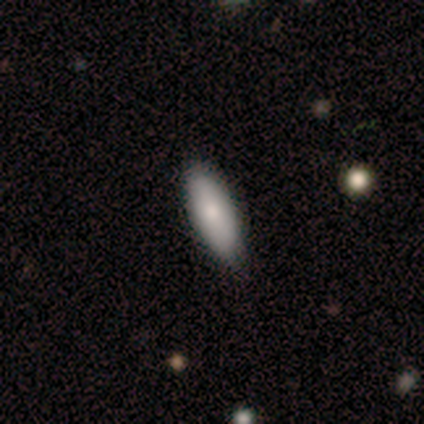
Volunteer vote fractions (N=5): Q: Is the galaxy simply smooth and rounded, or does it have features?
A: smooth — 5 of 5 (100%).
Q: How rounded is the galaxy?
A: cigar-shaped — 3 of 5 (60%).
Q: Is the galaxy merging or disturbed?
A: none — 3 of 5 (60%).